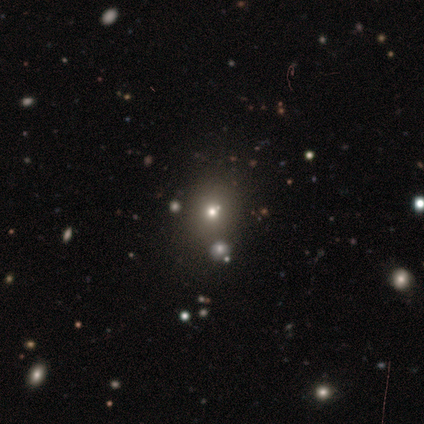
Smooth or featured?
  - smooth: 60% *
  - star or artifact: 36%
  - featured or disk: 5%
How rounded?
  - round: 84% *
  - in between: 16%
  - cigar-shaped: 0%
Merging?
  - none: 89% *
  - minor disturbance: 7%
  - merger: 4%
  - major disturbance: 0%